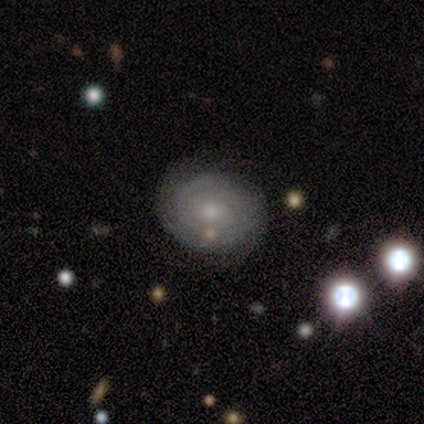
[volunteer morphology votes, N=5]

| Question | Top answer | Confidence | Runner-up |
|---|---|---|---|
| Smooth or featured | featured or disk | 80% | smooth (20%) |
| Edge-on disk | no | 100% | — |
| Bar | no | 100% | — |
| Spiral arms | yes | 100% | — |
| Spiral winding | tight | 75% | medium (25%) |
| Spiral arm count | can't tell | 75% | 2 (25%) |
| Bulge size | small | 75% | moderate (25%) |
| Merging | none | 80% | major disturbance (20%) |